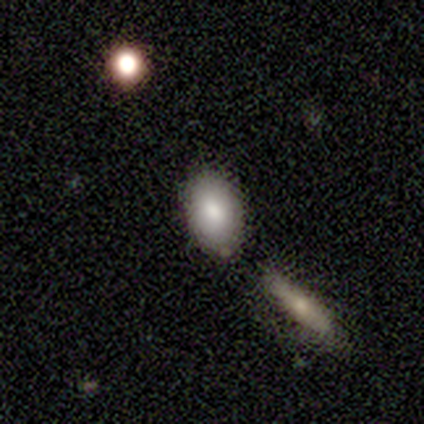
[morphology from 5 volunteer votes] smooth_or_featured: smooth (p=0.80) [alt: star or artifact p=0.20]
how_rounded: in between (p=1.00)
merging: none (p=0.75) [alt: major disturbance p=0.25]